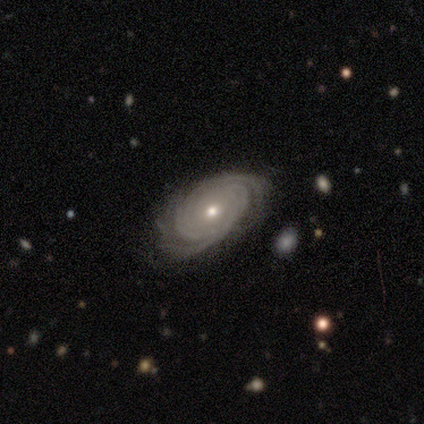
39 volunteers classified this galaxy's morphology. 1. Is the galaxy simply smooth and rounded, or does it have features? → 77% featured or disk, 13% smooth, 10% star or artifact.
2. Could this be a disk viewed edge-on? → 100% no, 0% yes.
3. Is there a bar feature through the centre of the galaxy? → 90% no, 7% strong, 3% weak.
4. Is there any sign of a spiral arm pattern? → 97% yes, 3% no.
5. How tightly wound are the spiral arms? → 83% tight, 14% medium, 3% loose.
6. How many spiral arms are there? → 34% can't tell, 28% 2, 17% 4, 14% 3, 7% more than 4, 0% 1.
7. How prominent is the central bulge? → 57% small, 43% moderate, 0% dominant, 0% large, 0% none.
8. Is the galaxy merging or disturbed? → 83% none, 17% minor disturbance, 0% major disturbance, 0% merger.